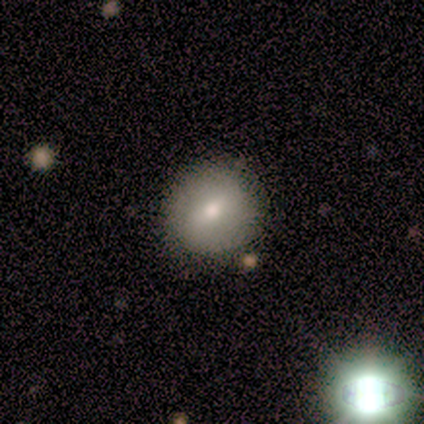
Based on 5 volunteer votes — smooth_or_featured: smooth (p=0.60) [alt: featured or disk p=0.40]
how_rounded: round (p=1.00)
merging: none (p=1.00)